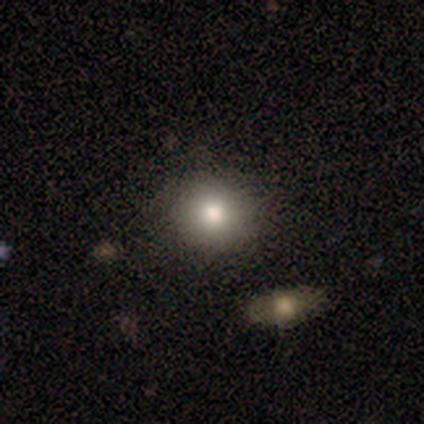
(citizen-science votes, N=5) This is clearly a smooth galaxy (80%). How rounded: clearly round (100%). Merging: clearly none (100%).